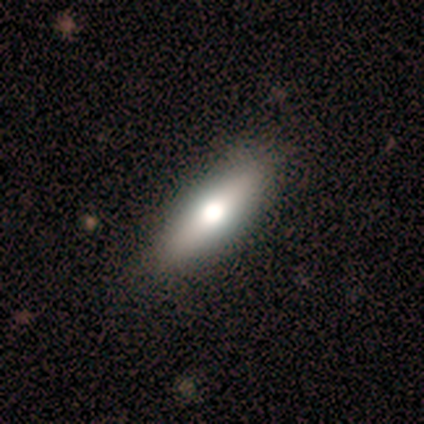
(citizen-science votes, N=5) Smooth or featured: smooth — 60% (featured or disk — 40%)
How rounded: in between — 67% (cigar-shaped — 33%)
Merging: none — 100%